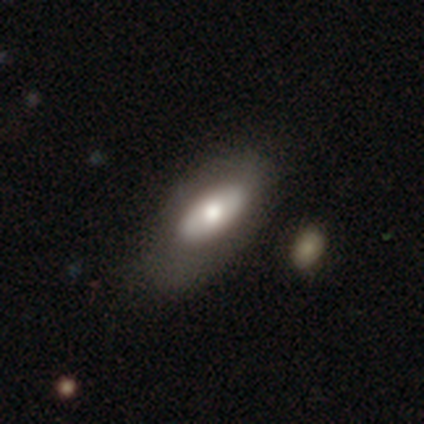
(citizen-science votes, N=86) Volunteers were most divided on "smooth or featured": smooth: 69%, featured or disk: 28%, star or artifact: 3%. More confident: how rounded — in between (93%); merging — none (71%).